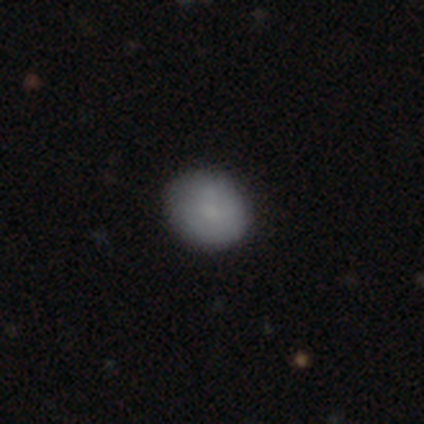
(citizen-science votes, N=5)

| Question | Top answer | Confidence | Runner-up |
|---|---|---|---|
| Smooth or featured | smooth | 100% | — |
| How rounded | round | 80% | in between (20%) |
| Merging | none | 100% | — |